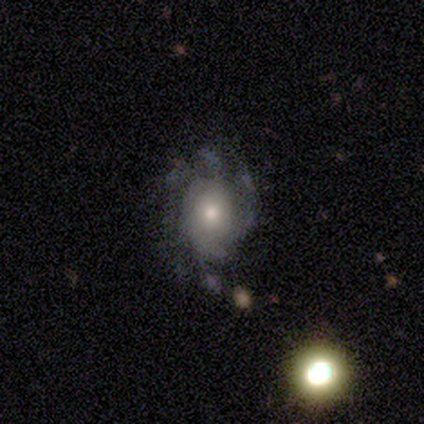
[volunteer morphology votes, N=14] smooth-or-featured: featured or disk: 71% | smooth: 21% | star or artifact: 7%
  disk-edge-on: no: 90% | yes: 10%
    bar: no: 100% | strong: 0% | weak: 0%
    has-spiral-arms: yes: 89% | no: 11%
      spiral-winding: medium: 75% | tight: 25% | loose: 0%
      spiral-arm-count: can't tell: 62% | 1: 25% | 2: 12% | 3: 0% | 4: 0% | more than 4: 0%
    bulge-size: moderate: 78% | small: 22% | dominant: 0% | large: 0% | none: 0%
  merging: none: 69% | minor disturbance: 31% | major disturbance: 0% | merger: 0%